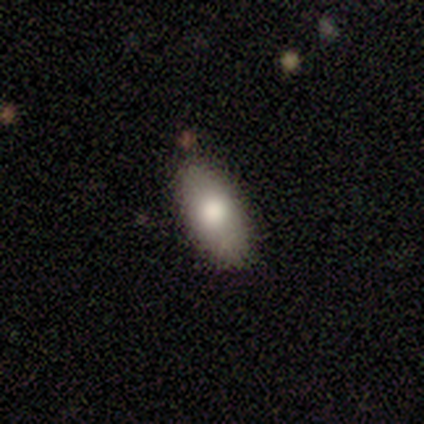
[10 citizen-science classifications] Overall: smooth (80%). How rounded: in between (100%). Merging: none (90%).